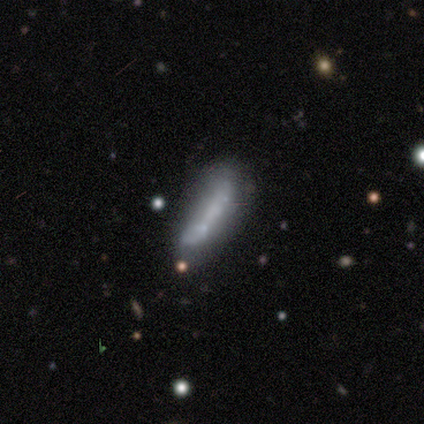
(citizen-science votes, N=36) Smooth or featured? featured or disk (53%)
Edge-on disk? no (58%)
Bar? no (100%)
Spiral arms? no (91%)
Bulge size? none (82%)
Merging? none (50%)